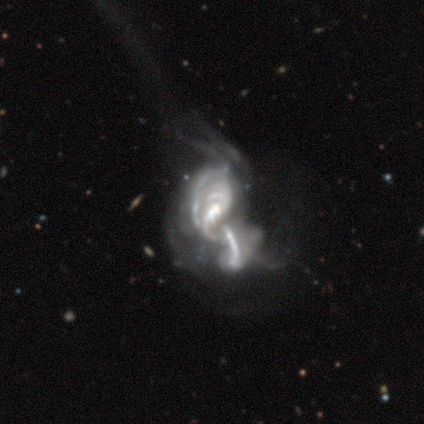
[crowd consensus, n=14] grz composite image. It shows a featured or disk galaxy (93%) with no bar (58%), tight (50%) spiral arms (50%, tied with no) and a moderate central bulge (42%). Merging: merger (62%).